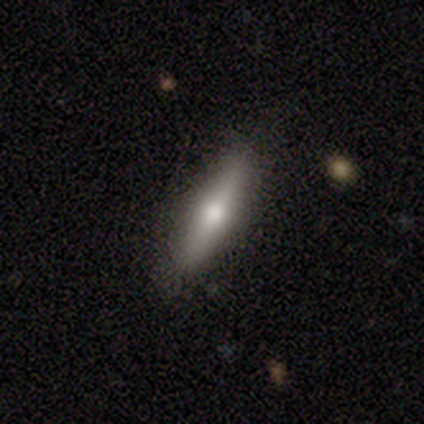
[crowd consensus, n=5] Q: Smooth or featured?
A: smooth (60%); runner-up: featured or disk (40%)
Q: How rounded?
A: cigar-shaped (67%); runner-up: in between (33%)
Q: Merging?
A: none (80%); runner-up: major disturbance (20%)